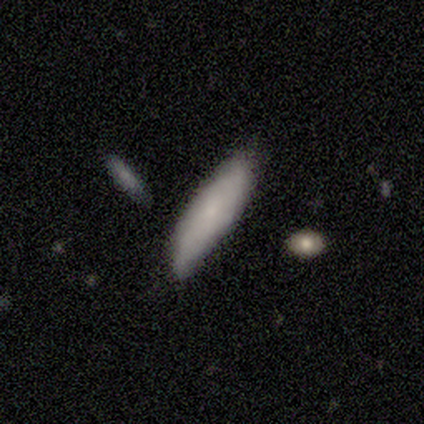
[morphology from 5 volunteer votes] Volunteers were most divided on "smooth or featured": smooth: 60%, featured or disk: 40%, star or artifact: 0%. More confident: how rounded — cigar-shaped (100%); merging — none (60%).